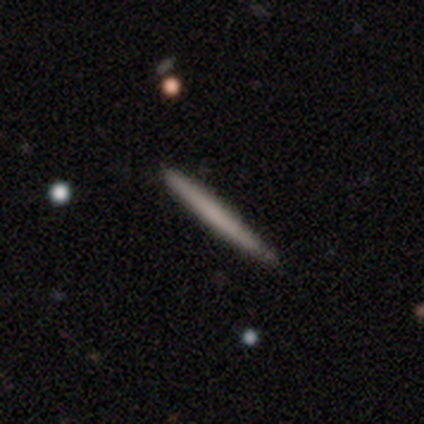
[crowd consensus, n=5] Smooth or featured? 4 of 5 (80%) said smooth. How rounded? 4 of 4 (100%) said cigar-shaped. Merging? 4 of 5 (80%) said none.